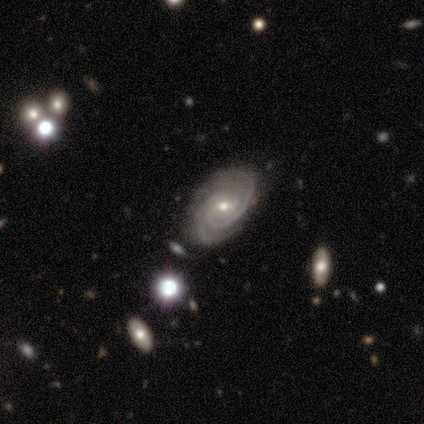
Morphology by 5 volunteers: A featured or disk galaxy (80%) with a weak bar (67%), 2 (33%, tied with 3 and can't tell) tight (100%) spiral arms (100%) and a small central bulge (100%).

Vote fractions:
- Smooth or featured? featured or disk: 80% / star or artifact: 20% / smooth: 0%
- Edge-on disk? no: 75% / yes: 25%
- Bar? weak: 67% / no: 33% / strong: 0%
- Spiral arms? yes: 100% / no: 0%
- Spiral winding? tight: 100% / medium: 0% / loose: 0%
- Spiral arm count? 2: 33% (tied) / 3: 33% (tied) / can't tell: 33% (tied) / 1: 0% / 4: 0% / more than 4: 0%
- Bulge size? small: 100% / dominant: 0% / large: 0% / moderate: 0% / none: 0%
- Merging? none: 50% / minor disturbance: 25% / merger: 25% / major disturbance: 0%